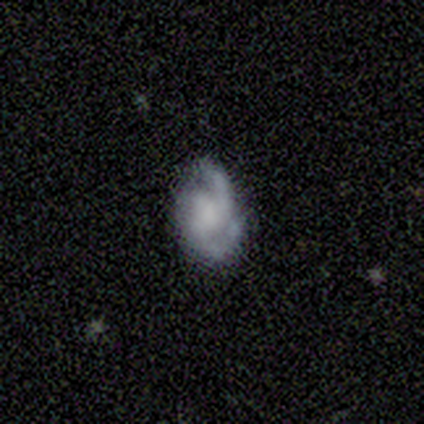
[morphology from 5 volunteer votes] Smooth or featured?
  - featured or disk: 100% *
  - smooth: 0%
  - star or artifact: 0%
Edge-on disk?
  - no: 100% *
  - yes: 0%
Bar?
  - weak: 60% *
  - no: 40%
  - strong: 0%
Spiral arms?
  - yes: 100% *
  - no: 0%
Spiral winding?
  - medium: 40% * (tied)
  - loose: 40% * (tied)
  - tight: 20%
Spiral arm count?
  - 2: 60% *
  - 1: 20%
  - 3: 20%
  - 4: 0%
  - more than 4: 0%
  - can't tell: 0%
Bulge size?
  - none: 80% *
  - small: 20%
  - dominant: 0%
  - large: 0%
  - moderate: 0%
Merging?
  - none: 60% *
  - minor disturbance: 40%
  - major disturbance: 0%
  - merger: 0%